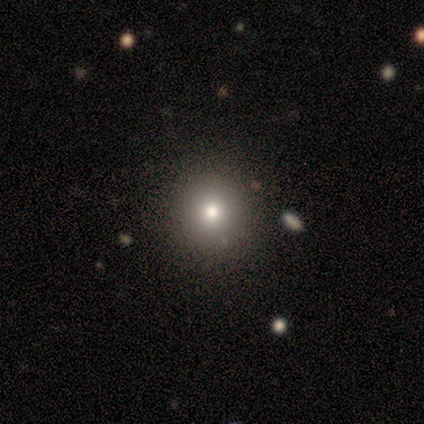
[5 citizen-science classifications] This is clearly a smooth galaxy (100%). How rounded: clearly round (100%). Merging: clearly none (100%).